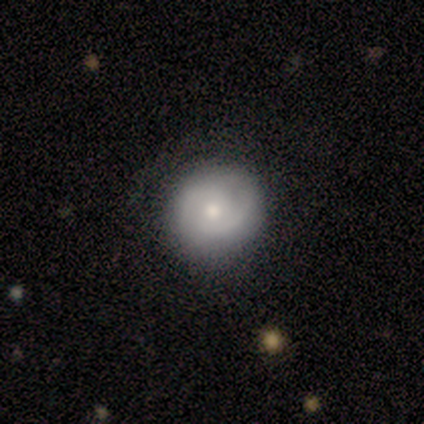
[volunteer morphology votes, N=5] Smooth or featured?
  - smooth: 40% * (tied)
  - featured or disk: 40% * (tied)
  - star or artifact: 20%
How rounded?
  - round: 100% *
  - in between: 0%
  - cigar-shaped: 0%
Merging?
  - none: 100% *
  - minor disturbance: 0%
  - major disturbance: 0%
  - merger: 0%